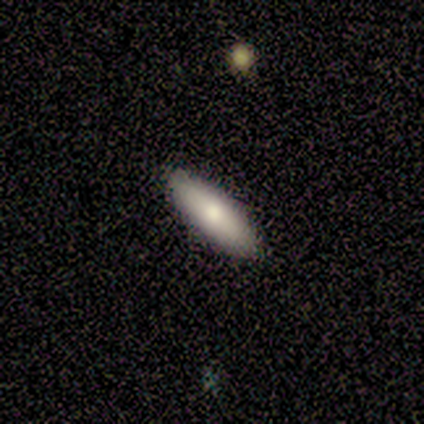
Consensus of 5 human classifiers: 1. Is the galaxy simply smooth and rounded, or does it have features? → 80% smooth, 20% featured or disk, 0% star or artifact.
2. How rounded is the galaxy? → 75% in between, 25% cigar-shaped, 0% round.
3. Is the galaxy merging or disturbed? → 100% none, 0% minor disturbance, 0% major disturbance, 0% merger.